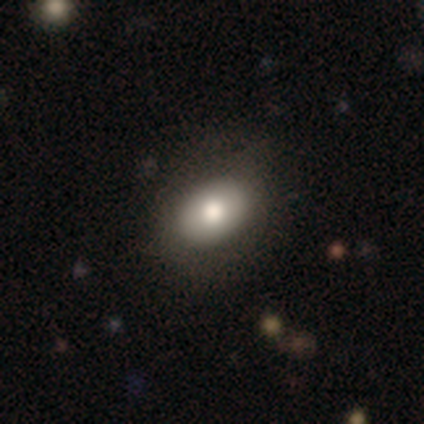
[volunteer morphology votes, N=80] A smooth galaxy with no disk features (80%) that is in between round and cigar-shaped (81%).

Vote fractions:
- Smooth or featured? smooth: 80% / featured or disk: 15% / star or artifact: 5%
- How rounded? in between: 81% / round: 19% / cigar-shaped: 0%
- Merging? none: 43% / minor disturbance: 11% / major disturbance: 4% / merger: 0%